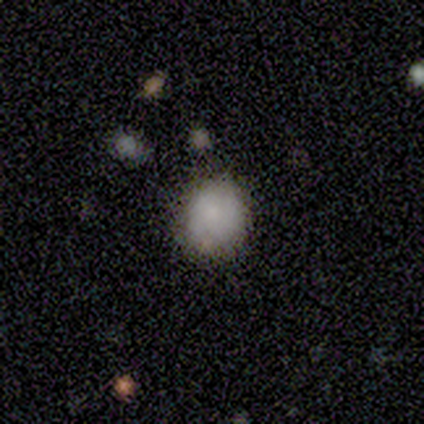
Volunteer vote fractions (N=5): Smooth or featured: smooth — 100%
How rounded: round — 60% (in between — 40%)
Merging: none — 60% (minor disturbance — 20%)